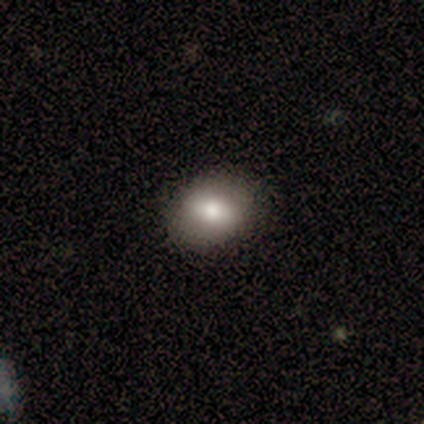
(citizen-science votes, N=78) smooth_or_featured: smooth (p=0.72) [alt: featured or disk p=0.15]
how_rounded: in between (p=0.59) [alt: round p=0.41]
merging: none (p=0.51) [alt: minor disturbance p=0.03]